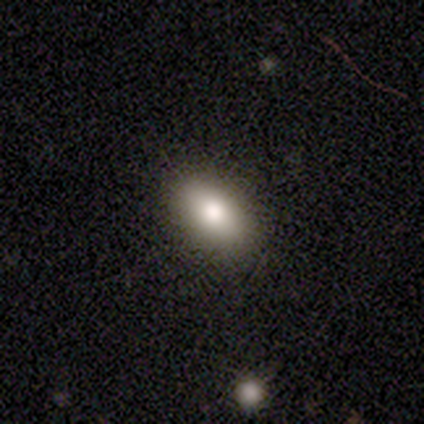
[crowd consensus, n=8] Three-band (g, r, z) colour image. It shows a smooth galaxy with no disk features (75%) that is in between round and cigar-shaped (67%). Merging: none (62%).